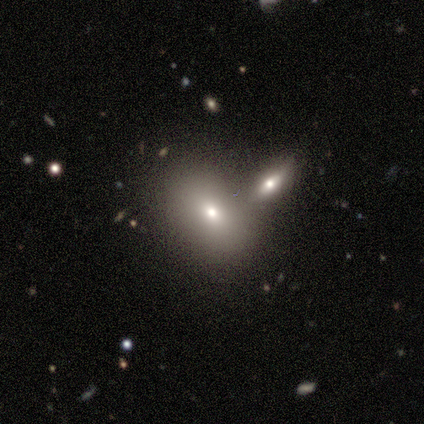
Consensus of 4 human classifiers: Smooth or featured?
  - smooth: 50% *
  - featured or disk: 25%
  - star or artifact: 25%
How rounded?
  - in between: 100% *
  - round: 0%
  - cigar-shaped: 0%
Merging?
  - merger: 67% *
  - minor disturbance: 33%
  - none: 0%
  - major disturbance: 0%